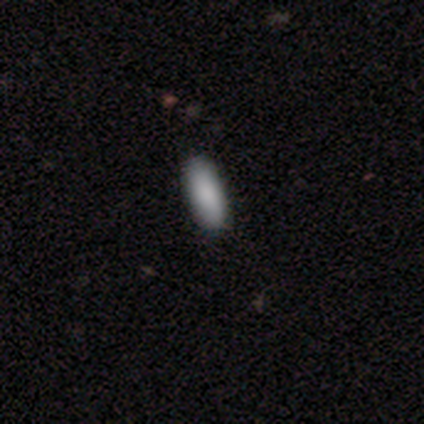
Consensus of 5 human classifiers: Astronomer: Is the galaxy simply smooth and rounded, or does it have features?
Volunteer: smooth — 100%.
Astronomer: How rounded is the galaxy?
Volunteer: in between — 80%.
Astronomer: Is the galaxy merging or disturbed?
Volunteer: none — 100%.